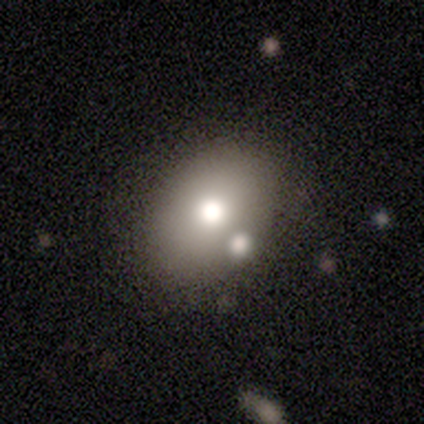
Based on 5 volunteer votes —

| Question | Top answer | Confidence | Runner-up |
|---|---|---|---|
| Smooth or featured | smooth | 80% | star or artifact (20%) |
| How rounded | round | 50% | tied: in between (50%) |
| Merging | none | 75% | merger (25%) |